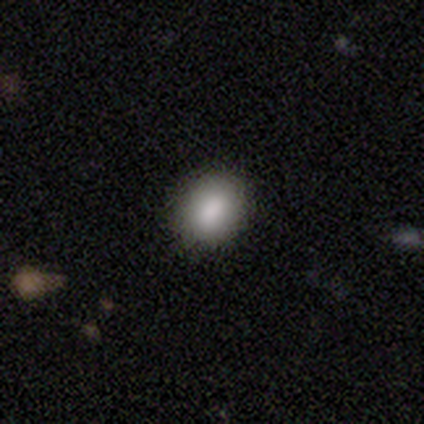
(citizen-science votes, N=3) This appears to be a smooth galaxy with no disk features (100%) that is in between round and cigar-shaped (67%). Merging: none (67%).